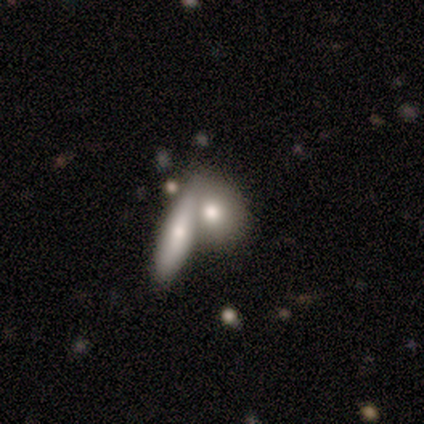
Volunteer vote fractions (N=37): Smooth or featured: smooth — 73% (featured or disk — 24%)
How rounded: in between — 44% (round — 41%)
Merging: merger — 61% (none — 31%)